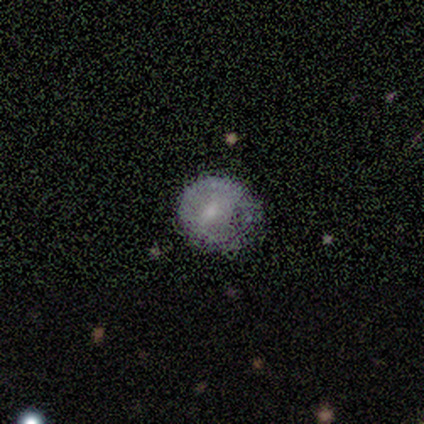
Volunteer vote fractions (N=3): Q: Smooth or featured?
A: smooth (100%)
Q: How rounded?
A: round (100%)
Q: Merging?
A: minor disturbance (67%); runner-up: none (33%)